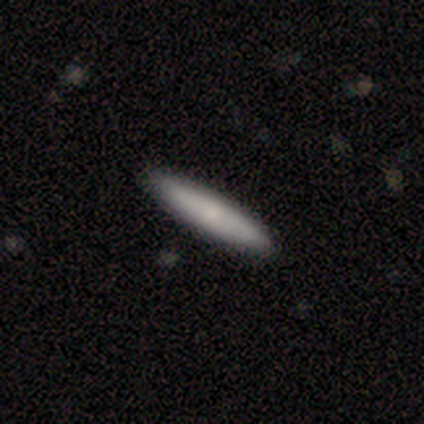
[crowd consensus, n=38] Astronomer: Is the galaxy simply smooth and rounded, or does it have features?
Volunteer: smooth — 71%.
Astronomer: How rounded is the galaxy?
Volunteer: cigar-shaped — 93%.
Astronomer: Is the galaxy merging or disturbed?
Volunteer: none — 63%.